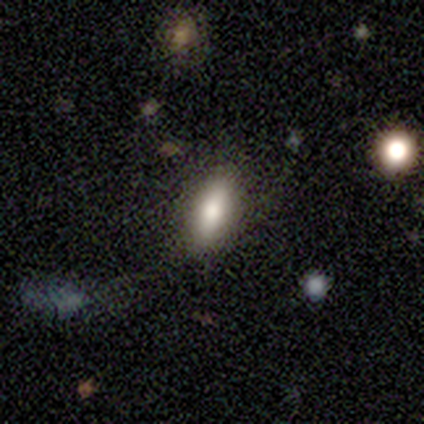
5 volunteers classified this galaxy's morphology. type=smooth (80%); roundness=in between (100%); merging=none (100%).